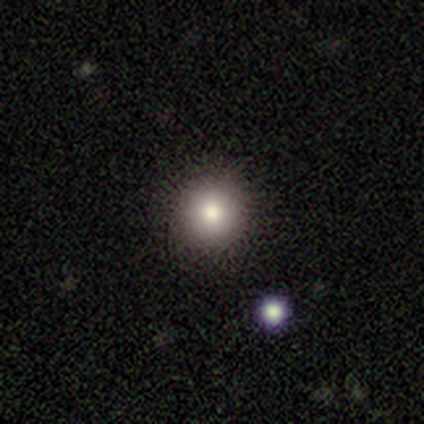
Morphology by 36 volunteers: A smooth galaxy with no disk features (72%) that is round (96%).

Vote fractions:
- Smooth or featured? smooth: 72% / star or artifact: 19% / featured or disk: 8%
- How rounded? round: 96% / in between: 4% / cigar-shaped: 0%
- Merging? none: 86% / minor disturbance: 10% / merger: 3% / major disturbance: 0%